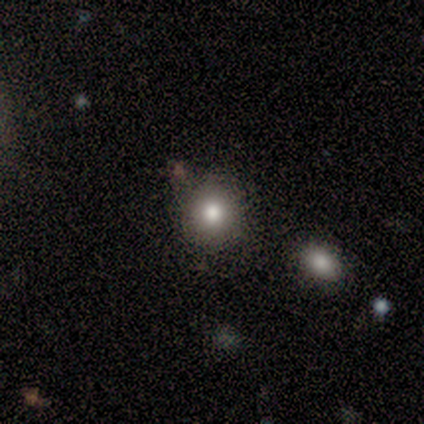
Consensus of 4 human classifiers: smooth_or_featured: smooth (p=1.00)
how_rounded: round (p=1.00)
merging: none (p=1.00)